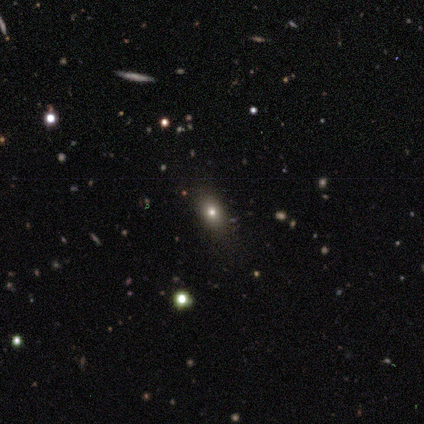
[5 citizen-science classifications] Morphology: type=smooth (40%, tied with star or artifact); roundness=in between (100%); merging=none (33%, tied with major disturbance and merger).